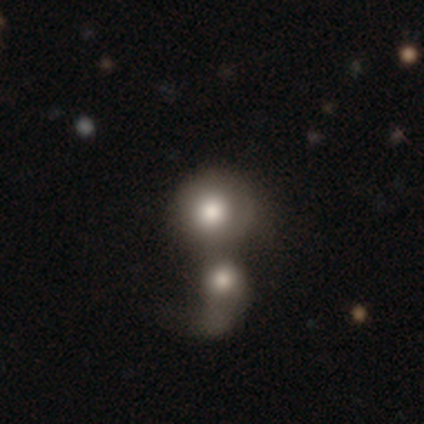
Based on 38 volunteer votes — Smooth or featured?
  - smooth: 68% *
  - featured or disk: 29%
  - star or artifact: 3%
How rounded?
  - round: 92% *
  - in between: 8%
  - cigar-shaped: 0%
Merging?
  - merger: 73% *
  - none: 27%
  - minor disturbance: 0%
  - major disturbance: 0%